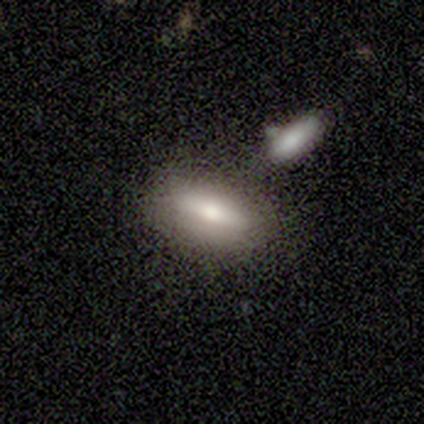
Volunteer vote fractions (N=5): Q: Smooth or featured?
A: smooth (80%); runner-up: featured or disk (20%)
Q: How rounded?
A: in between (100%)
Q: Merging?
A: minor disturbance (60%); runner-up: none (20%)